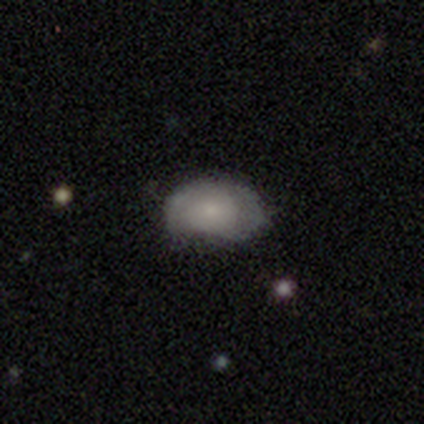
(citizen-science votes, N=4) A featured or disk galaxy (50%) viewed edge-on (50%, tied with no) with a rounded central bulge (100%).

Vote fractions:
- Smooth or featured? featured or disk: 50% / smooth: 25% / star or artifact: 25%
- Edge-on disk? yes: 50% (tied) / no: 50% (tied)
- Edge-on bulge? rounded: 100% / boxy: 0% / none: 0%
- Merging? none: 100% / minor disturbance: 0% / major disturbance: 0% / merger: 0%